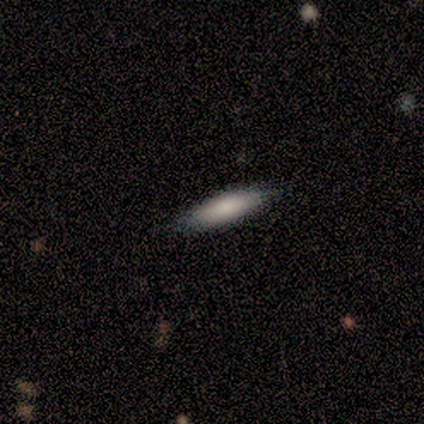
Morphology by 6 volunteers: smooth-or-featured: smooth: 83% | star or artifact: 17% | featured or disk: 0%
  how-rounded: cigar-shaped: 60% | in between: 40% | round: 0%
  merging: none: 100% | minor disturbance: 0% | major disturbance: 0% | merger: 0%